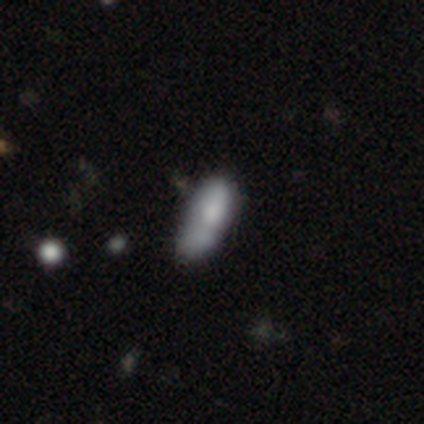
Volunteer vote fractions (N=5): smooth_or_featured: smooth (p=1.00)
how_rounded: in between (p=0.80) [alt: cigar-shaped p=0.20]
merging: merger (p=0.40) [alt: none p=0.20]